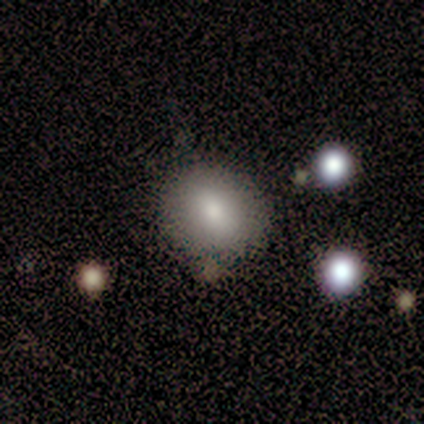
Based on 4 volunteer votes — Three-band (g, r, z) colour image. It shows a smooth galaxy with no disk features (75%) that is round (100%). Merging: minor disturbance (67%).